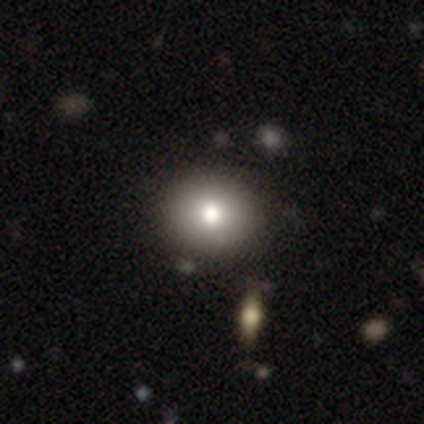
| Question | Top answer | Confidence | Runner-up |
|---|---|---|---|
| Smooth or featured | smooth | 100% | — |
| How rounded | round | 50% | tied: in between (50%) |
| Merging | none | 100% | — |